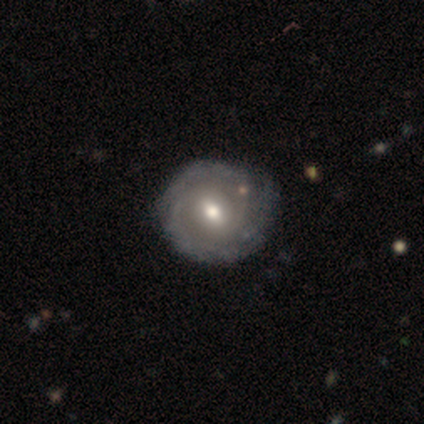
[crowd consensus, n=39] smooth_or_featured: featured or disk (p=0.87) [alt: smooth p=0.13]
disk_edge_on: no (p=0.97) [alt: yes p=0.03]
bar: weak (p=0.70) [alt: no p=0.21]
has_spiral_arms: yes (p=0.85) [alt: no p=0.15]
spiral_winding: tight (p=0.57) [alt: medium p=0.36]
spiral_arm_count: 2 (p=0.57) [alt: can't tell p=0.36]
bulge_size: moderate (p=0.85) [alt: large p=0.06]
merging: none (p=0.36) [alt: minor disturbance p=0.15]